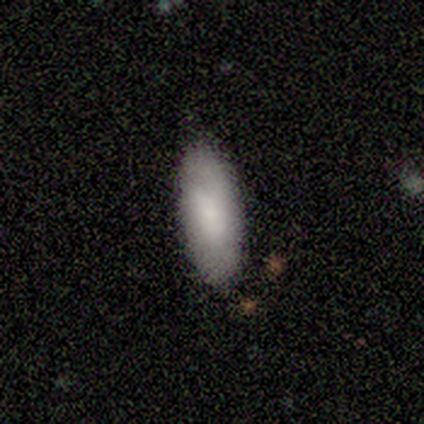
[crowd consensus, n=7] A smooth galaxy with no disk features (100%) that is in between round and cigar-shaped (86%).

Vote fractions:
- Smooth or featured? smooth: 100% / featured or disk: 0% / star or artifact: 0%
- How rounded? in between: 86% / cigar-shaped: 14% / round: 0%
- Merging? none: 100% / minor disturbance: 0% / major disturbance: 0% / merger: 0%